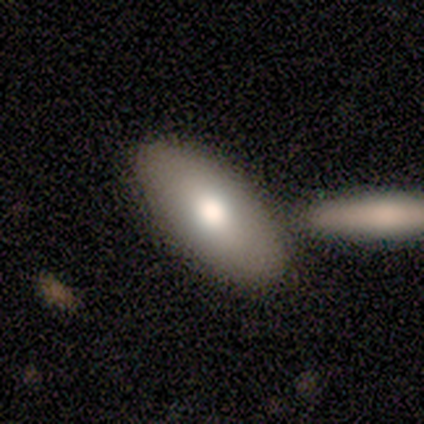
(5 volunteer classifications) A smooth galaxy with no disk features (100%) that is in between round and cigar-shaped (80%).

Vote fractions:
- Smooth or featured? smooth: 100% / featured or disk: 0% / star or artifact: 0%
- How rounded? in between: 80% / cigar-shaped: 20% / round: 0%
- Merging? none: 80% / merger: 20% / minor disturbance: 0% / major disturbance: 0%